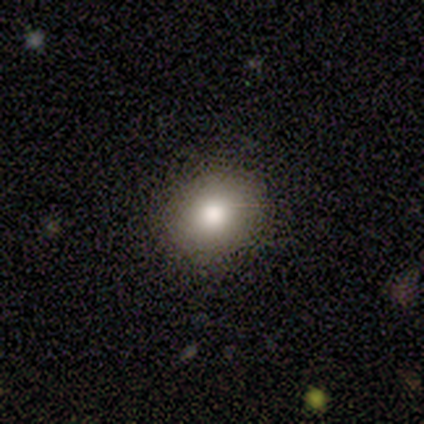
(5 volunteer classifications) Smooth or featured? smooth (80%)
How rounded? round (75%)
Merging? none (100%)